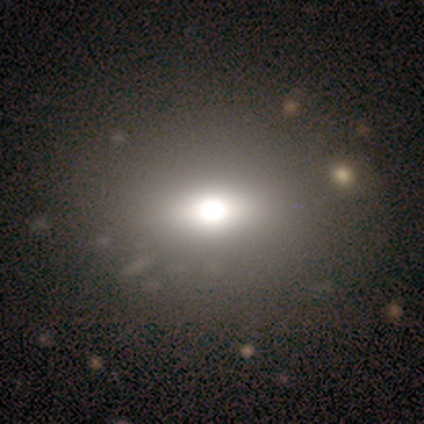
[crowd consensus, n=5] Overall: smooth (80%). How rounded: round (50%, tied with in between). Merging: none (100%).